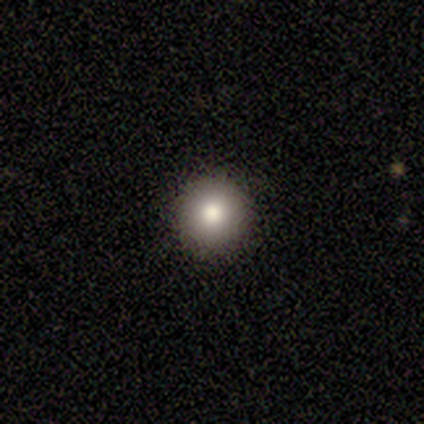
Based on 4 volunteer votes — This appears to be a smooth galaxy with no disk features (100%) that is round (100%). Merging: none (100%).